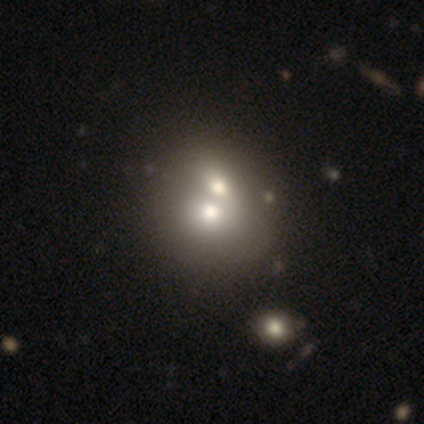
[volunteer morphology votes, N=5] Smooth or featured? smooth (80%)
How rounded? round (100%)
Merging? merger (60%)